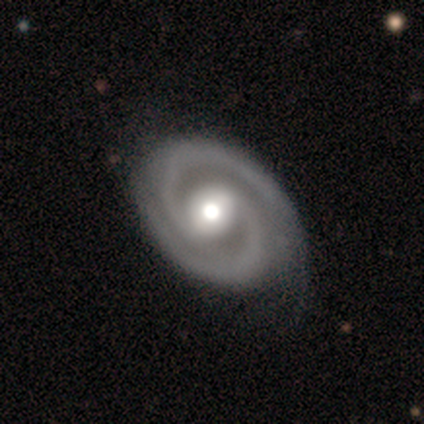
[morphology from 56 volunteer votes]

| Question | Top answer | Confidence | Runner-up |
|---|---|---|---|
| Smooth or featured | featured or disk | 95% | smooth (5%) |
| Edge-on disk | no | 100% | — |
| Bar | no | 49% | weak (30%) |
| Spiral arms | yes | 100% | — |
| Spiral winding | tight | 62% | medium (34%) |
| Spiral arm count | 2 | 96% | 3 (2%) |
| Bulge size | moderate | 60% | large (30%) |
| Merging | none | 71% | minor disturbance (27%) |